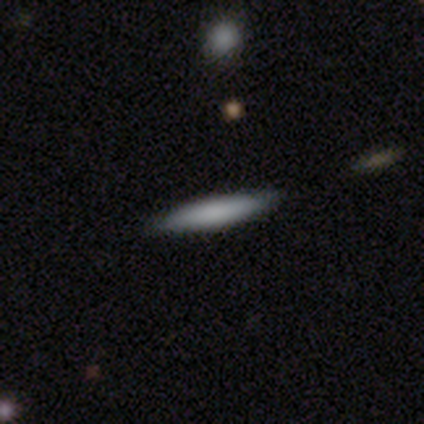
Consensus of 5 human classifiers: Q: Smooth or featured?
A: smooth (40%); tied with: featured or disk (40%)
Q: How rounded?
A: cigar-shaped (100%)
Q: Merging?
A: none (75%); runner-up: minor disturbance (25%)